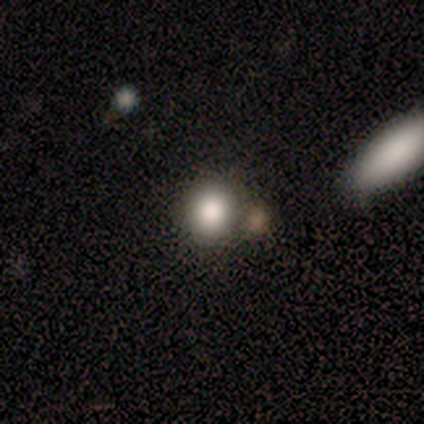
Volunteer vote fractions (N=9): Volunteers were most divided on "how rounded": round: 67%, in between: 33%, cigar-shaped: 0%. More confident: merging — none (71%); smooth or featured — smooth (67%).